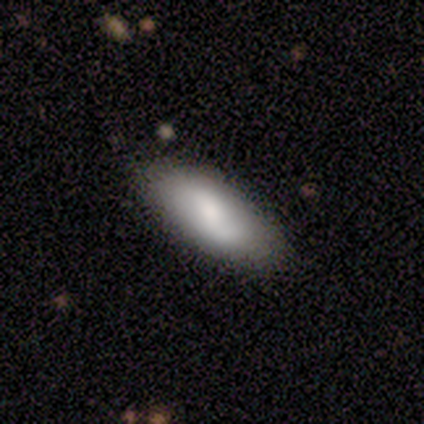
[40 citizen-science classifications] Smooth or featured?
  - smooth: 72% *
  - featured or disk: 25%
  - star or artifact: 2%
How rounded?
  - in between: 93% *
  - cigar-shaped: 7%
  - round: 0%
Merging?
  - none: 46% *
  - minor disturbance: 15%
  - merger: 8%
  - major disturbance: 0%